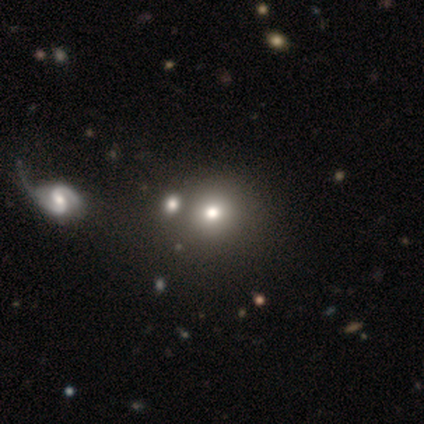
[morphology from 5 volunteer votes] smooth-or-featured: smooth: 60% | featured or disk: 20% | star or artifact: 20%
  how-rounded: round: 67% | in between: 33% | cigar-shaped: 0%
  merging: none: 75% | merger: 25% | minor disturbance: 0% | major disturbance: 0%